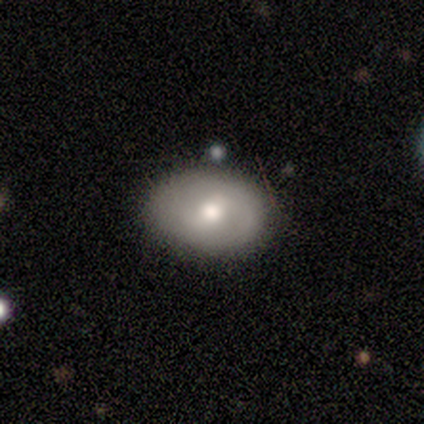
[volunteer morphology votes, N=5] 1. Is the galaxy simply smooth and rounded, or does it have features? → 100% smooth, 0% featured or disk, 0% star or artifact.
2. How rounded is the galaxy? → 100% in between, 0% round, 0% cigar-shaped.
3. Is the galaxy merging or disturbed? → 60% none, 40% minor disturbance, 0% major disturbance, 0% merger.